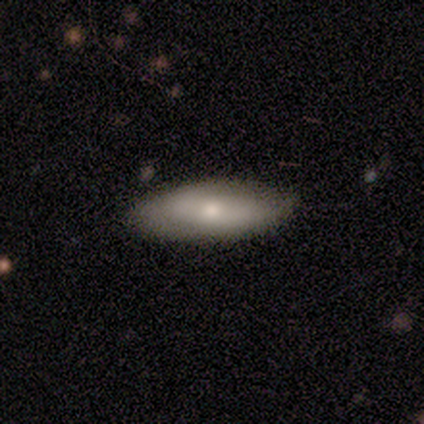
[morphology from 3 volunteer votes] smooth_or_featured: smooth (p=0.33) [tied with: featured or disk p=0.33, star or artifact p=0.33]
how_rounded: in between (p=1.00)
merging: none (p=0.50) [tied with: minor disturbance p=0.50]